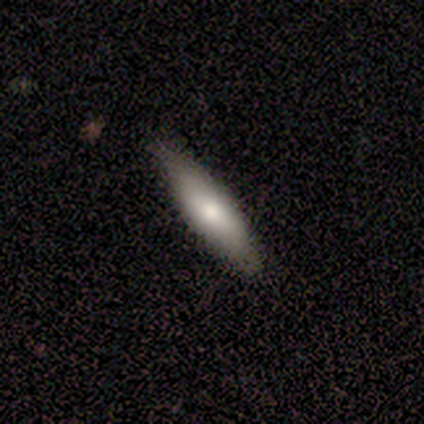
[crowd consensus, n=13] A smooth galaxy with no disk features (77%) that is cigar-shaped (70%).

Vote fractions:
- Smooth or featured? smooth: 77% / featured or disk: 23% / star or artifact: 0%
- How rounded? cigar-shaped: 70% / in between: 30% / round: 0%
- Merging? none: 69% / minor disturbance: 31% / major disturbance: 0% / merger: 0%